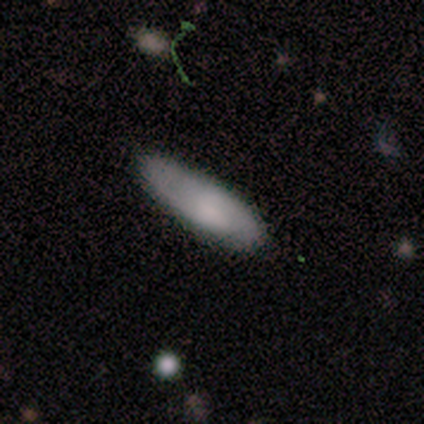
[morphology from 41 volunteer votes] This is possibly a smooth galaxy (59%). How rounded: possibly in between (58%). Merging: likely none (74%).